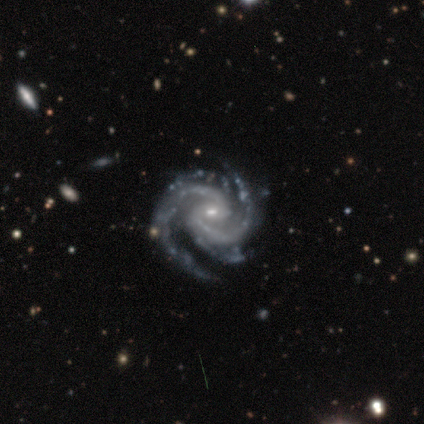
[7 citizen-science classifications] Q: Smooth or featured?
A: featured or disk (100%)
Q: Edge-on disk?
A: no (100%)
Q: Bar?
A: weak (100%)
Q: Spiral arms?
A: yes (100%)
Q: Spiral winding?
A: tight (71%); runner-up: medium (29%)
Q: Spiral arm count?
A: 2 (57%); runner-up: 4 (29%)
Q: Bulge size?
A: small (71%); runner-up: moderate (29%)
Q: Merging?
A: none (86%); runner-up: minor disturbance (14%)